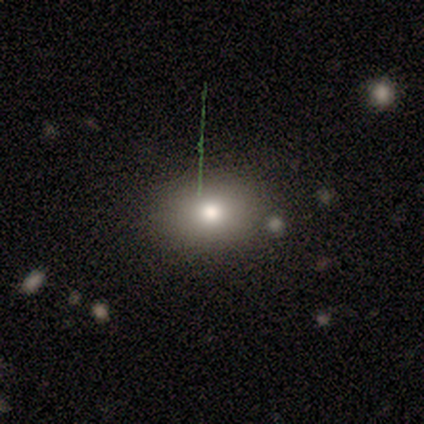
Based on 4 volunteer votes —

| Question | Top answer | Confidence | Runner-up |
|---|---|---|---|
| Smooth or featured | smooth | 50% | tied: star or artifact (50%) |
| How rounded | round | 100% | — |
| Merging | none | 100% | — |